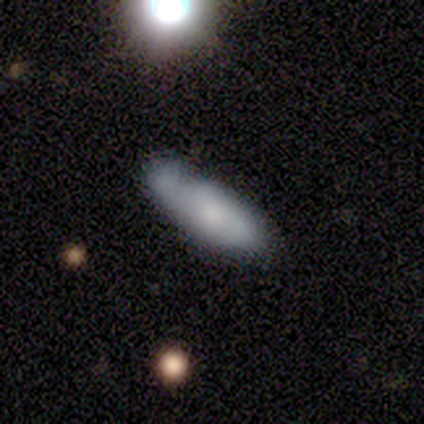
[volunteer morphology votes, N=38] A smooth galaxy with no disk features (63%) that is in between round and cigar-shaped (71%). Merging: none (47%).